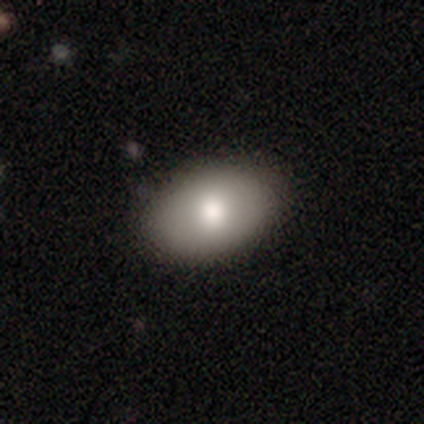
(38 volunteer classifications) smooth 79%, featured or disk 18%, star or artifact 3%. Down the decision tree: how rounded — in between (83%); merging — none (86%).